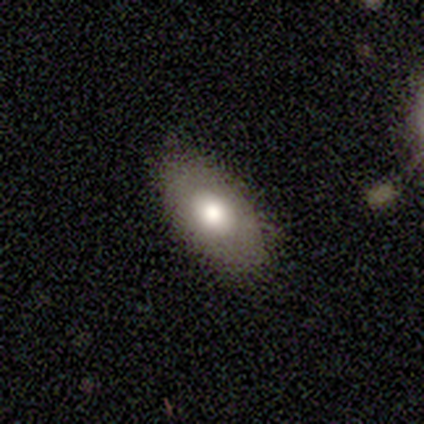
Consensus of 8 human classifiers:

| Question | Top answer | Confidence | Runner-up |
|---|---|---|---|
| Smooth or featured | smooth | 75% | featured or disk (25%) |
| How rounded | in between | 83% | round (17%) |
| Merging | none | 88% | minor disturbance (12%) |